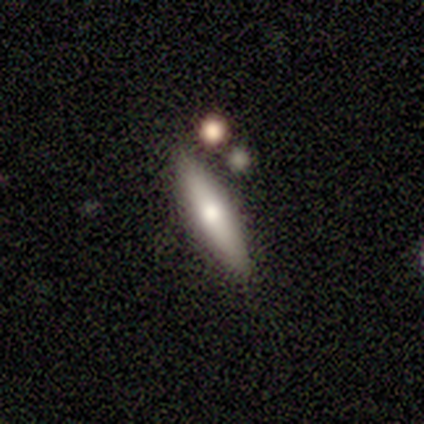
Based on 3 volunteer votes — A smooth galaxy with no disk features (67%) that is cigar-shaped (100%).

Vote fractions:
- Smooth or featured? smooth: 67% / featured or disk: 33% / star or artifact: 0%
- How rounded? cigar-shaped: 100% / round: 0% / in between: 0%
- Merging? none: 100% / minor disturbance: 0% / major disturbance: 0% / merger: 0%